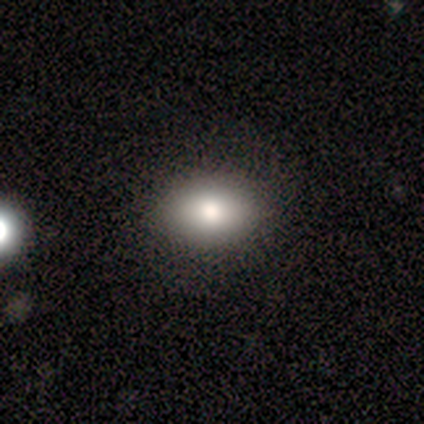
A smooth galaxy with no disk features (86%) that is in between round and cigar-shaped (100%).

Vote fractions:
- Smooth or featured? smooth: 86% / star or artifact: 14% / featured or disk: 0%
- How rounded? in between: 100% / round: 0% / cigar-shaped: 0%
- Merging? none: 67% / minor disturbance: 33% / major disturbance: 0% / merger: 0%